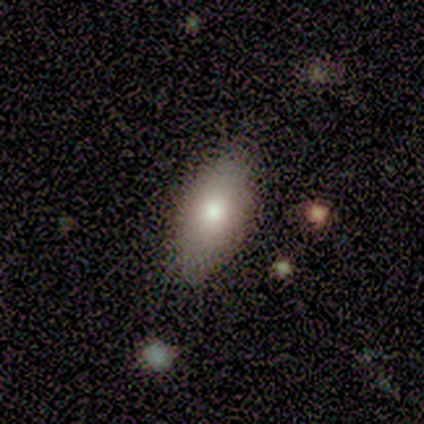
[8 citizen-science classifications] A smooth galaxy with no disk features (75%) that is in between round and cigar-shaped (67%). Merging: none (88%).